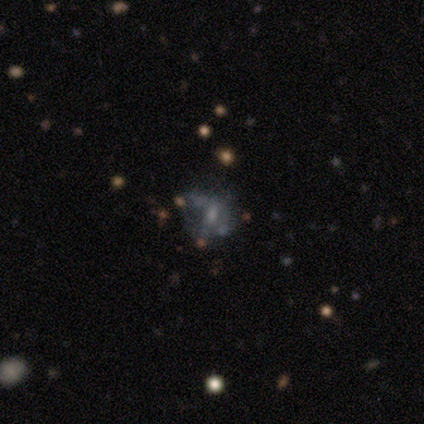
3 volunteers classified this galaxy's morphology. Q: Smooth or featured?
A: featured or disk (67%); runner-up: smooth (33%)
Q: Edge-on disk?
A: no (100%)
Q: Bar?
A: weak (50%); tied with: no (50%)
Q: Spiral arms?
A: no (100%)
Q: Bulge size?
A: small (50%); tied with: none (50%)
Q: Merging?
A: none (67%); runner-up: merger (33%)